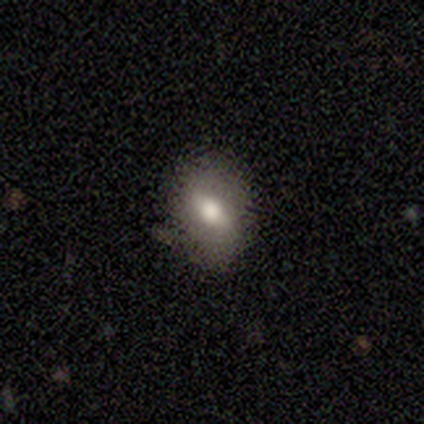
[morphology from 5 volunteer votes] This appears to be a featured or disk galaxy (60%) with a strong bar (67%), no spiral arms (67%) and a moderate central bulge (67%). Merging: none (100%).